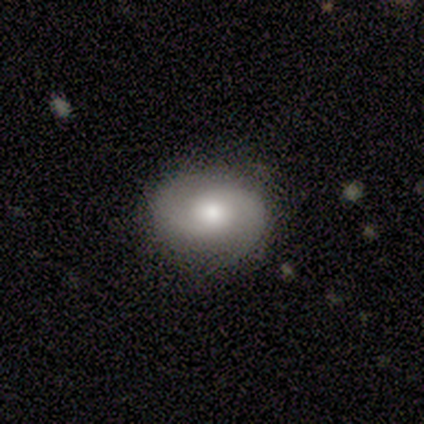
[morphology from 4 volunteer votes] Smooth or featured: featured or disk — 100%
Edge-on disk: no — 100%
Bar: no — 100%
Spiral arms: yes — 100%
Spiral winding: medium — 50% (tight — 25%)
Spiral arm count: 2 — 75% (1 — 25%)
Bulge size: small — 75% (moderate — 25%)
Merging: none — 100%